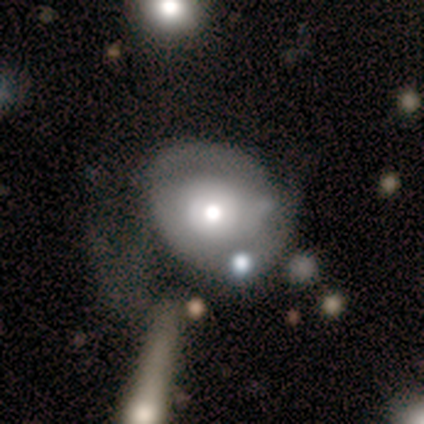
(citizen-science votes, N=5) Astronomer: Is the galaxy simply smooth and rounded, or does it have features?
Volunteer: featured or disk — 100%.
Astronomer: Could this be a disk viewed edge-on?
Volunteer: no — 100%.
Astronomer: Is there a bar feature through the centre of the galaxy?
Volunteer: no — 80%.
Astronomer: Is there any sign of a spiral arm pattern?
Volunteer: no — 80%.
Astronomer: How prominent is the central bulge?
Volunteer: moderate — 80%.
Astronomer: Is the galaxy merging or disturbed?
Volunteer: none — 60%.